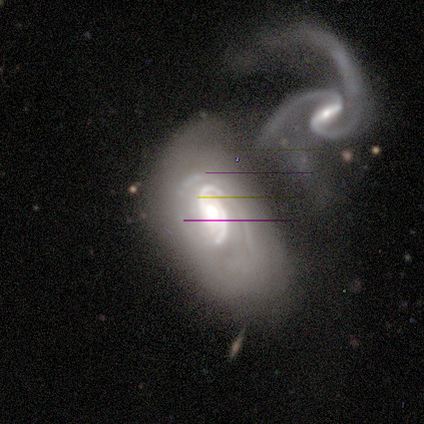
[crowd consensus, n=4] A featured or disk galaxy (100%) with no bar (100%), 2 (75%) medium (50%) spiral arms (100%) and a large central bulge (50%, tied with moderate). Merging: merger (100%).